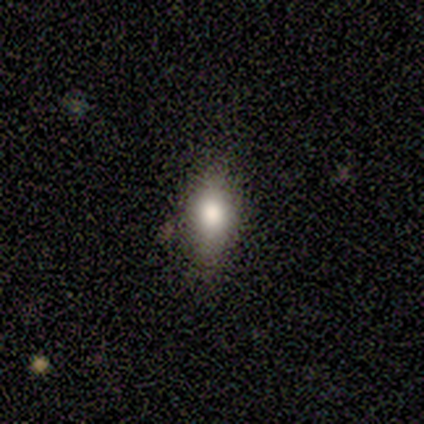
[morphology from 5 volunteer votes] This is clearly a smooth galaxy (100%). How rounded: clearly in between (100%). Merging: clearly none (100%).